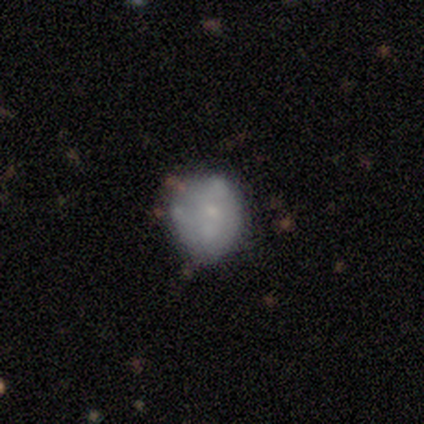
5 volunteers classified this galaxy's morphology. Q: Smooth or featured?
A: smooth (60%); runner-up: featured or disk (20%)
Q: How rounded?
A: round (67%); runner-up: in between (33%)
Q: Merging?
A: minor disturbance (75%); runner-up: merger (25%)